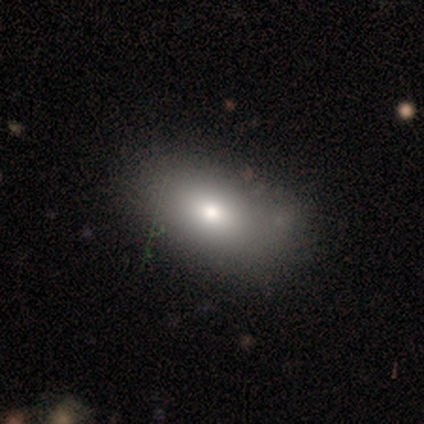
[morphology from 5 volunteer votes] type=smooth (80%); roundness=in between (100%); merging=none (40%, tied with minor disturbance).